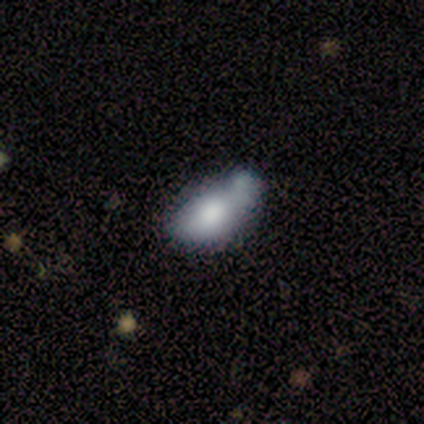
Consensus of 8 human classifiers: This appears to be a smooth galaxy with no disk features (88%) that is in between round and cigar-shaped (86%). Merging: merger (62%).